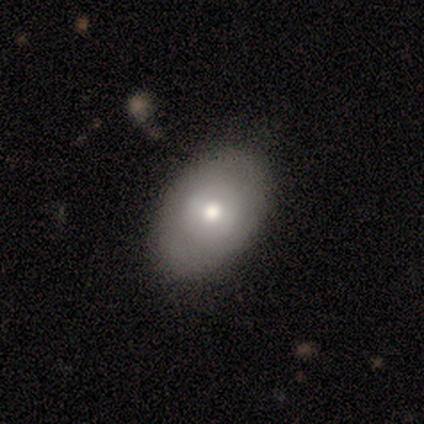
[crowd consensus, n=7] A smooth galaxy with no disk features (57%) that is in between round and cigar-shaped (75%). Merging: none (86%).